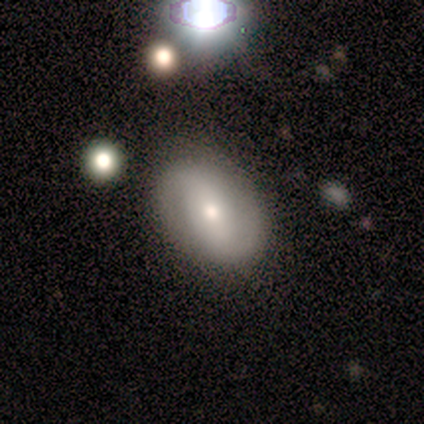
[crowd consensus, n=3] Overall: smooth (100%). How rounded: in between (100%). Merging: none (67%; minor disturbance 33%).